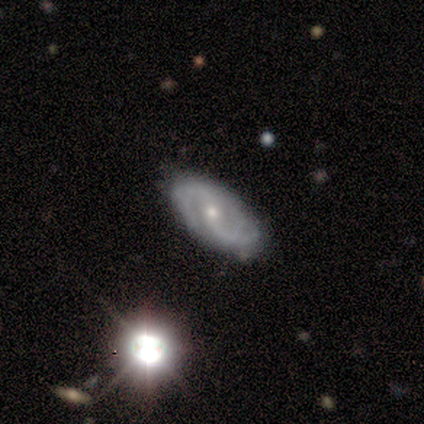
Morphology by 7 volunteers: smooth-or-featured: featured or disk: 100% | smooth: 0% | star or artifact: 0%
  disk-edge-on: no: 100% | yes: 0%
    bar: no: 57% | weak: 29% | strong: 14%
    has-spiral-arms: yes: 100% | no: 0%
      spiral-winding: medium: 57% | loose: 43% | tight: 0%
      spiral-arm-count: 2: 86% | 3: 14% | 1: 0% | 4: 0% | more than 4: 0% | can't tell: 0%
    bulge-size: small: 86% | moderate: 14% | dominant: 0% | large: 0% | none: 0%
  merging: none: 86% | minor disturbance: 14% | major disturbance: 0% | merger: 0%